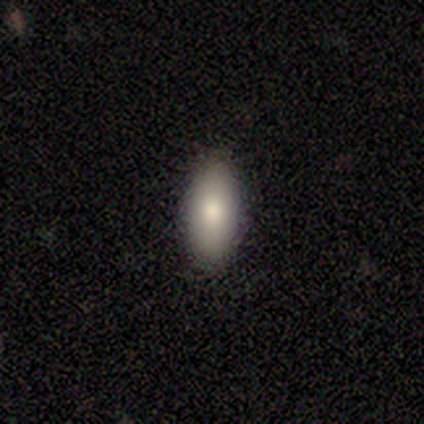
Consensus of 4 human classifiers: Q: Smooth or featured?
A: smooth (75%); runner-up: featured or disk (25%)
Q: How rounded?
A: cigar-shaped (67%); runner-up: in between (33%)
Q: Merging?
A: none (100%)